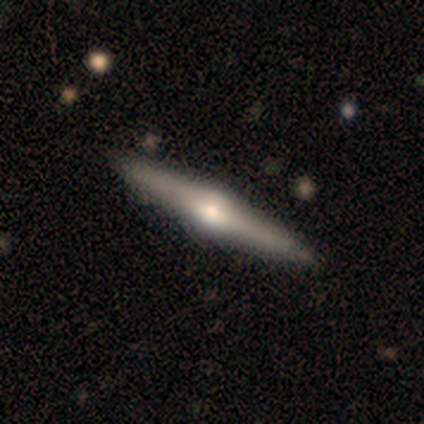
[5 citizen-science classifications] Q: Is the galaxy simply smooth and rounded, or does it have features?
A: featured or disk — 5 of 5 (100%).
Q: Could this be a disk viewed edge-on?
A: yes — 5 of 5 (100%).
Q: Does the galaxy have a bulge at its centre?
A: rounded — 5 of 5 (100%).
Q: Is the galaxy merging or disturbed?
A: none — 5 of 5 (100%).